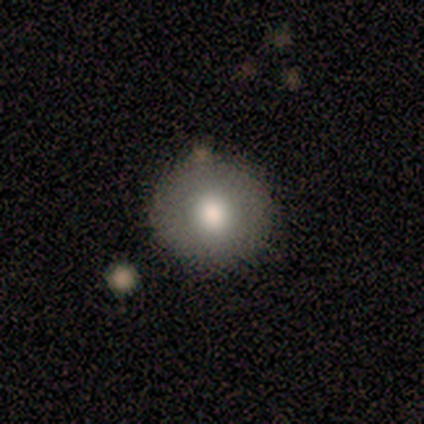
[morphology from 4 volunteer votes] Overall: smooth (50%, tied with featured or disk). How rounded: round (100%). Merging: none (100%).